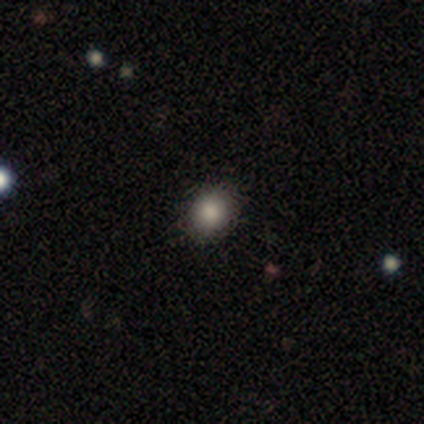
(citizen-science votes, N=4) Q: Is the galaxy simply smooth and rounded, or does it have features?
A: smooth — 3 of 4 (75%).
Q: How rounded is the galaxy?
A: round — 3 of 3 (100%).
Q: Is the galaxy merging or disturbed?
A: none — 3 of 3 (100%).